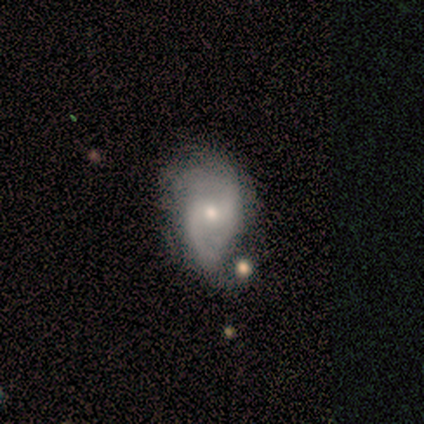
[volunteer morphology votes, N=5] type=featured or disk (100%); edge-on=no (100%); bar=no (80%); spiral arms=yes (100%); winding=medium (40%, tied with loose); arm count=2 (100%); bulge=moderate (40%, tied with small); merging=none (60%).